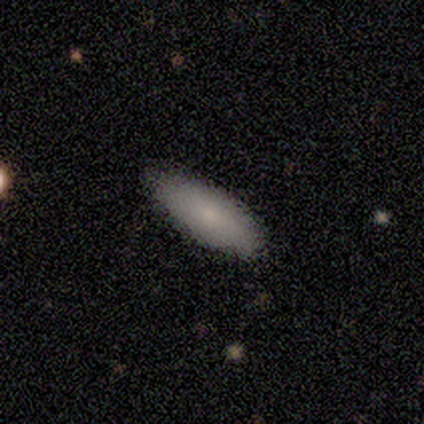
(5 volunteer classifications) This is clearly a smooth galaxy (80%). How rounded: possibly in between (50%, tied with cigar-shaped). Merging: clearly none (100%).